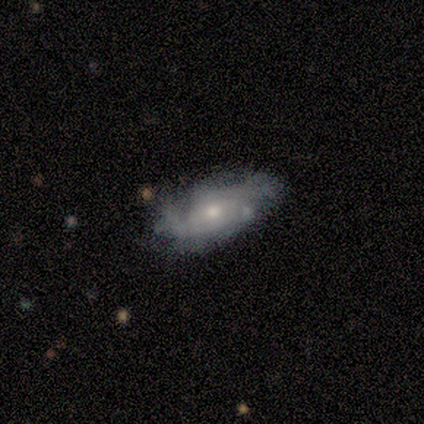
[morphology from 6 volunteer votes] smooth-or-featured: featured or disk: 67% | smooth: 33% | star or artifact: 0%
  disk-edge-on: no: 100% | yes: 0%
    bar: no: 50% | strong: 25% | weak: 25%
    has-spiral-arms: yes: 75% | no: 25%
      spiral-winding: tight: 33% (tied) | medium: 33% (tied) | loose: 33% (tied)
      spiral-arm-count: 2: 33% (tied) | 4: 33% (tied) | can't tell: 33% (tied) | 1: 0% | 3: 0% | more than 4: 0%
    bulge-size: small: 50% | moderate: 25% | none: 25% | dominant: 0% | large: 0%
  merging: none: 50% | minor disturbance: 33% | merger: 17% | major disturbance: 0%